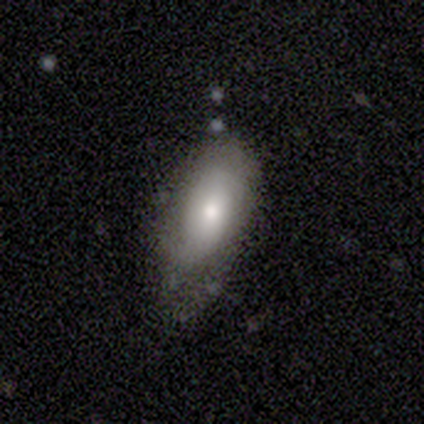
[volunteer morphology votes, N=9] Volunteers were most divided on "merging": minor disturbance: 50%, none: 25%, major disturbance: 12%, merger: 12%. More confident: smooth or featured — smooth (78%); how rounded — in between (71%).